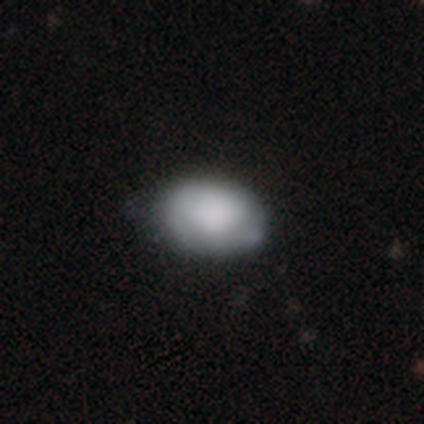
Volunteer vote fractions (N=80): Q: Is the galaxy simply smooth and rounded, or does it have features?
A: smooth — 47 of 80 (59%).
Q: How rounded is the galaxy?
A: in between — 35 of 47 (74%).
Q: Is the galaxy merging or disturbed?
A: none — 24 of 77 (31%).